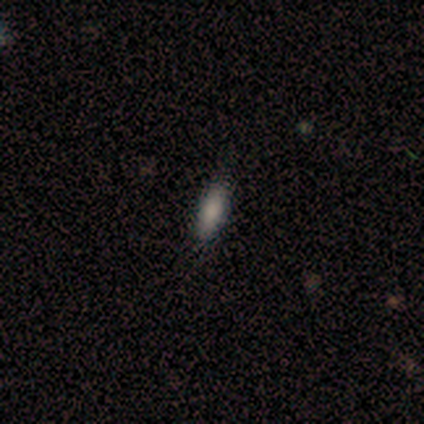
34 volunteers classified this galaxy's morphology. Smooth or featured? 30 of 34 (88%) said smooth. How rounded? 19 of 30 (63%) said in between. Merging? 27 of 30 (90%) said none.